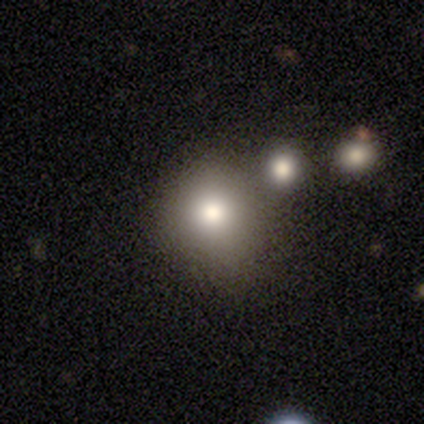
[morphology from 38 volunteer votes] Smooth or featured?
  - smooth: 82% *
  - star or artifact: 18%
  - featured or disk: 0%
How rounded?
  - round: 77% *
  - in between: 23%
  - cigar-shaped: 0%
Merging?
  - none: 55% *
  - merger: 23%
  - minor disturbance: 16%
  - major disturbance: 6%